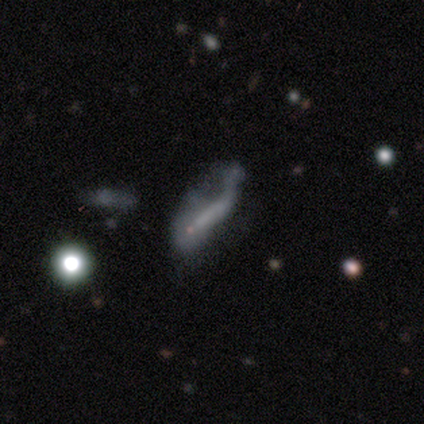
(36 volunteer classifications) Smooth or featured? 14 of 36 (39%) said smooth. How rounded? 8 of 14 (57%) said cigar-shaped. Merging? 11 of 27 (41%) said major disturbance.